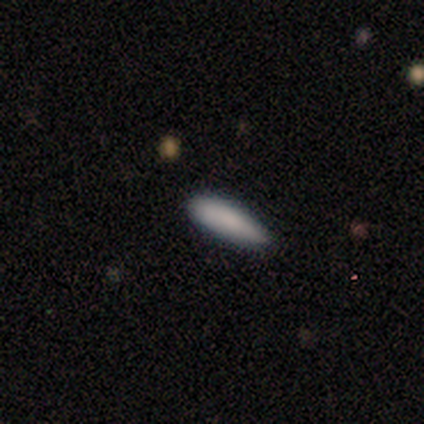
Volunteers were most divided on "how rounded": cigar-shaped: 75%, in between: 25%, round: 0%. More confident: smooth or featured — smooth (80%); merging — none (80%).